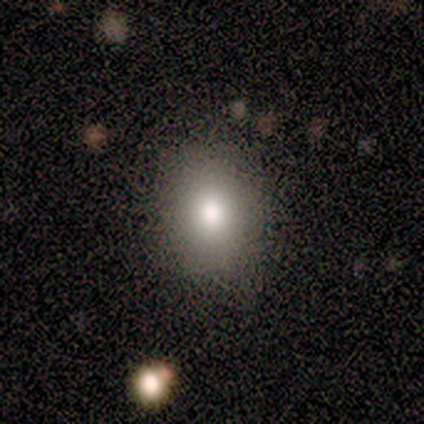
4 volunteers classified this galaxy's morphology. Volunteers were most divided on "how rounded" (2-way tie): round: 50%, in between: 50%, cigar-shaped: 0%. More confident: merging — none (67%); smooth or featured — smooth (50%).